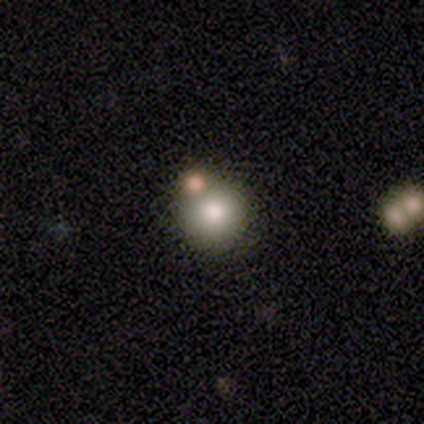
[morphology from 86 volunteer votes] Volunteers were most divided on "merging": none: 71%, merger: 22%, minor disturbance: 6%, major disturbance: 1%. More confident: how rounded — round (97%); smooth or featured — smooth (86%).